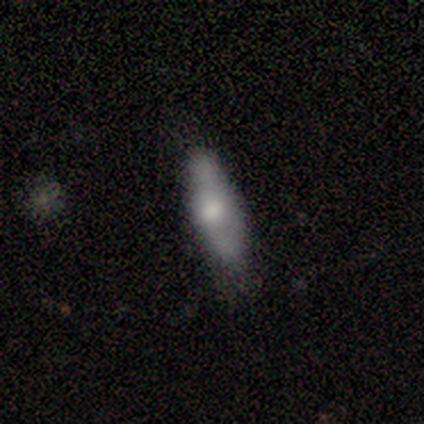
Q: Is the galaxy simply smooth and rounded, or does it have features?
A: featured or disk — 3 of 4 (75%).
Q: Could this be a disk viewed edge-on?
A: yes — 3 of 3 (100%).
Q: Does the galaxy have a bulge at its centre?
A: rounded — 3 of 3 (100%).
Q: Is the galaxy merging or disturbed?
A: none — 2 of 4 (50%).